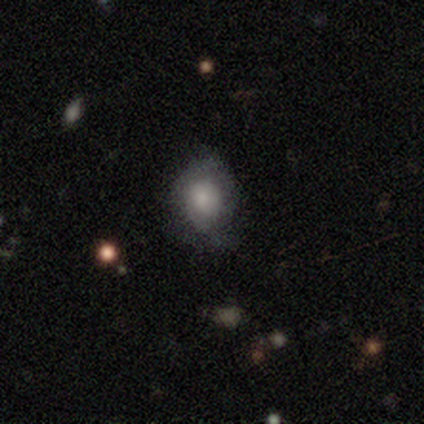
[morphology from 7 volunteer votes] A smooth galaxy with no disk features (43%, tied with star or artifact) that is in between round and cigar-shaped (67%). Merging: none (75%).